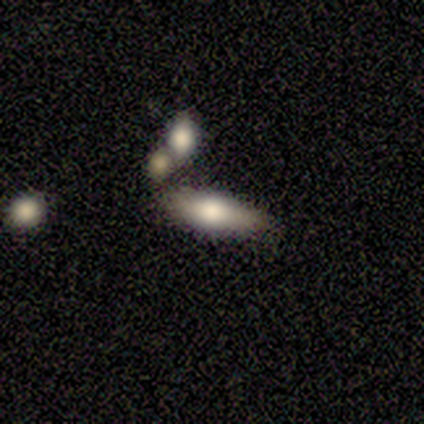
This appears to be a smooth galaxy with no disk features (80%) that is cigar-shaped (75%). Merging: none (75%).